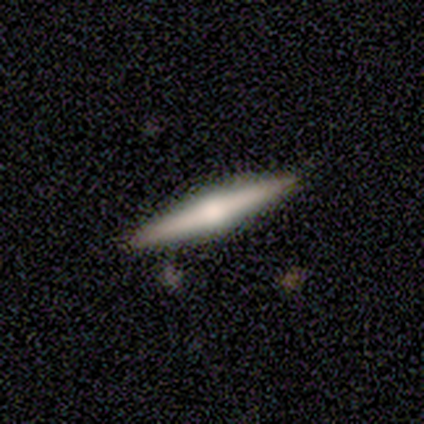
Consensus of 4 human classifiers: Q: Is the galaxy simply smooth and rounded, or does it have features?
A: smooth — 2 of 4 (50%, tied with featured or disk).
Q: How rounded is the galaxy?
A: cigar-shaped — 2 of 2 (100%).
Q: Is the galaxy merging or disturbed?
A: none — 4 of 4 (100%).